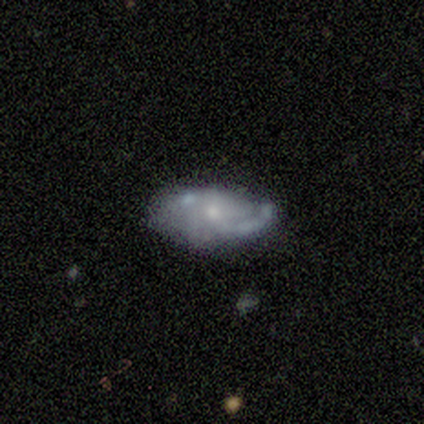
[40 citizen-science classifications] This appears to be a featured or disk galaxy (57%) with no bar (73%), 2 (41%) loose (47%) spiral arms (77%) and a small central bulge (64%). Merging: none (58%).